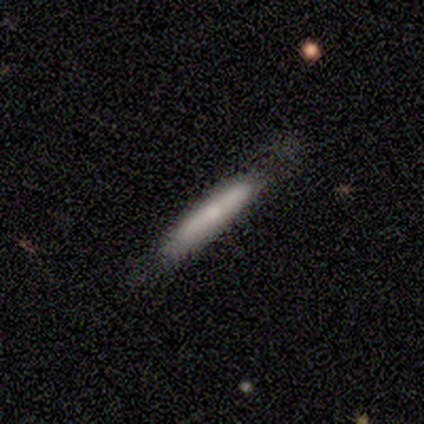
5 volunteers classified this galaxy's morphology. type=smooth (60%); roundness=cigar-shaped (67%); merging=none (80%).